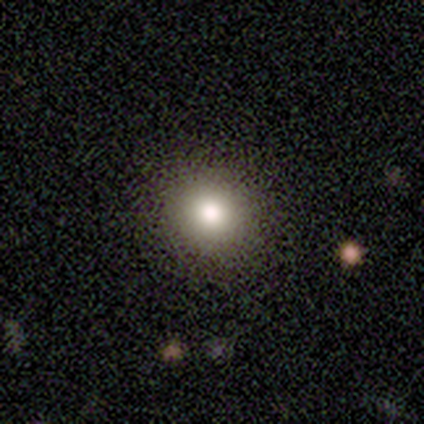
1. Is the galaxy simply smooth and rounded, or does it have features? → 100% smooth, 0% featured or disk, 0% star or artifact.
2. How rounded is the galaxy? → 100% round, 0% in between, 0% cigar-shaped.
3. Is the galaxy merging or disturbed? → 80% none, 20% minor disturbance, 0% major disturbance, 0% merger.